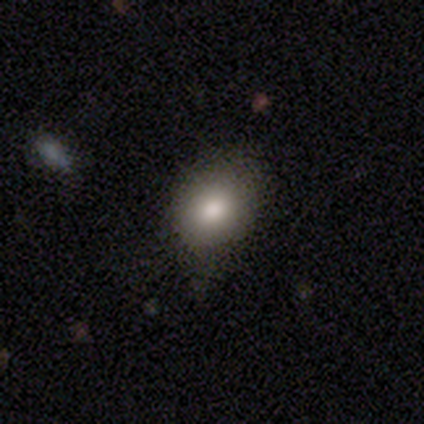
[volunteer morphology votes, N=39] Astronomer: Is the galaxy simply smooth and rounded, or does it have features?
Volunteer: smooth — 72%.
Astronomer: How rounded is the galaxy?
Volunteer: round — 61% (runner-up: in between, 39%).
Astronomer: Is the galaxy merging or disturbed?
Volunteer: none — 65%.